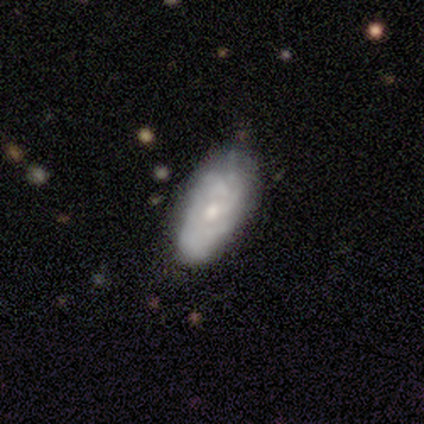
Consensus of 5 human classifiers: Smooth or featured? smooth (40%, tied with featured or disk)
How rounded? in between (100%)
Merging? none (50%, tied with minor disturbance)